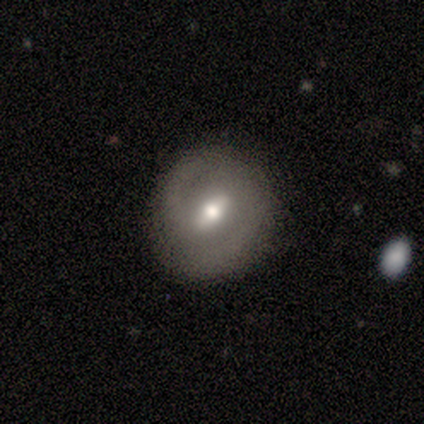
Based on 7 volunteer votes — This is possibly a featured or disk galaxy (57%). It is clearly not viewed edge-on (100%). Bar: possibly strong (50%, tied with weak). Spiral arm pattern: likely no (75%). Central bulge: clearly moderate (100%). Merging: clearly none (86%).